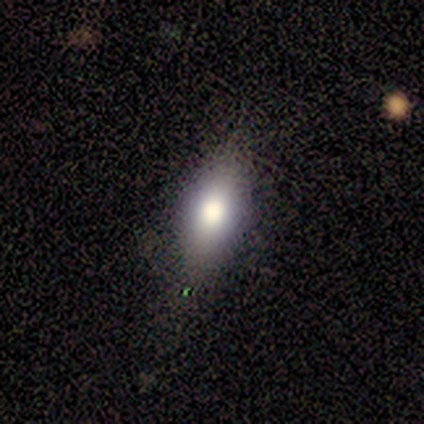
Smooth or featured? smooth (75%)
How rounded? in between (67%)
Merging? none (50%)